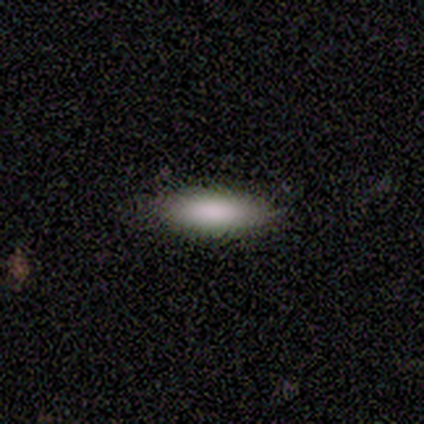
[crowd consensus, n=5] Q: Smooth or featured?
A: smooth (100%)
Q: How rounded?
A: in between (60%); runner-up: cigar-shaped (40%)
Q: Merging?
A: none (100%)